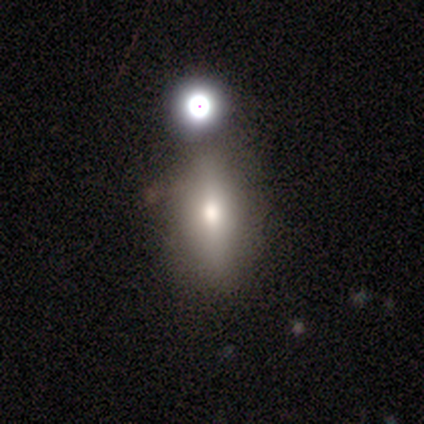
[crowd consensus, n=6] smooth-or-featured: smooth: 100% | featured or disk: 0% | star or artifact: 0%
  how-rounded: in between: 67% | round: 17% | cigar-shaped: 17%
  merging: none: 67% | minor disturbance: 33% | major disturbance: 0% | merger: 0%